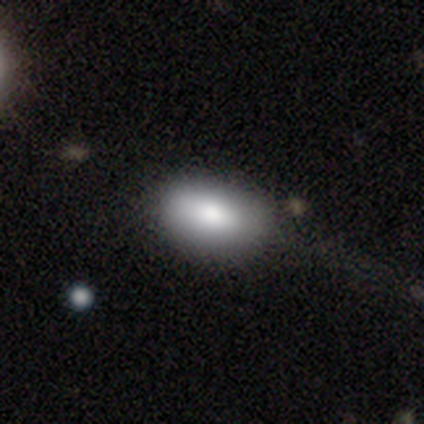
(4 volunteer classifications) smooth_or_featured: smooth (p=0.75) [alt: featured or disk p=0.25]
how_rounded: in between (p=0.67) [alt: cigar-shaped p=0.33]
merging: none (p=0.75) [alt: major disturbance p=0.25]